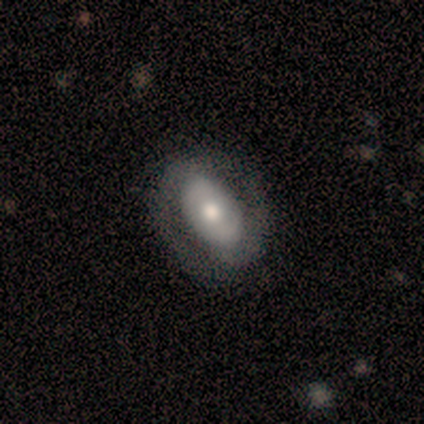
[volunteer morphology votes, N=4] A smooth galaxy with no disk features (50%, tied with featured or disk) that is in between round and cigar-shaped (100%). Merging: none (100%).